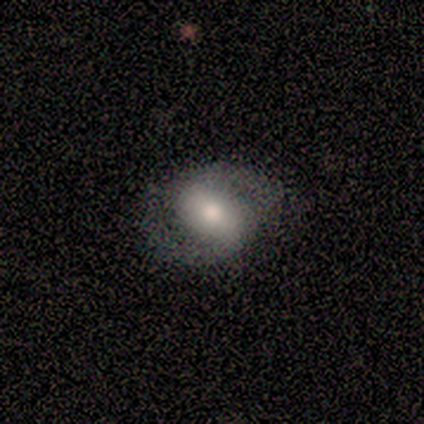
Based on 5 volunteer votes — Q: Smooth or featured?
A: featured or disk (100%)
Q: Edge-on disk?
A: no (100%)
Q: Bar?
A: weak (60%); runner-up: no (40%)
Q: Spiral arms?
A: yes (80%); runner-up: no (20%)
Q: Spiral winding?
A: medium (75%); runner-up: tight (25%)
Q: Spiral arm count?
A: 2 (50%); runner-up: 1 (25%)
Q: Bulge size?
A: moderate (80%); runner-up: dominant (20%)
Q: Merging?
A: none (80%); runner-up: major disturbance (20%)